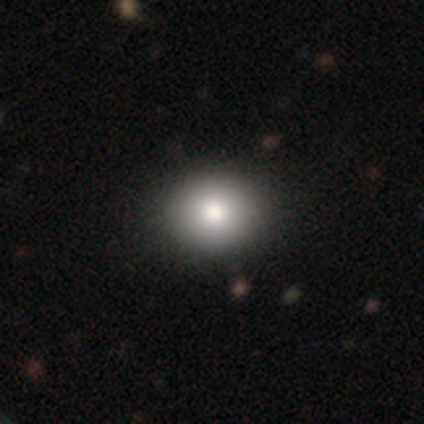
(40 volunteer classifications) Volunteers were most divided on "how rounded": round: 81%, in between: 19%, cigar-shaped: 0%. More confident: merging — none (88%); smooth or featured — smooth (78%).